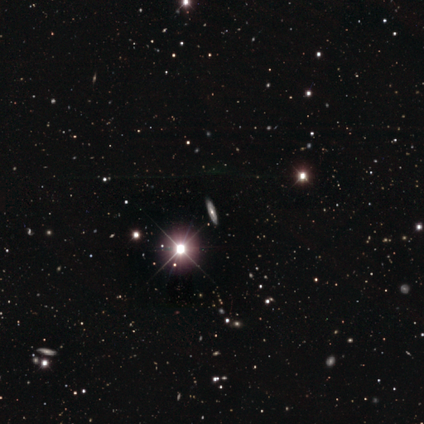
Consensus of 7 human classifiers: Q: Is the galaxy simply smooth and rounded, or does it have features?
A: star or artifact — 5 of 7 (71%).